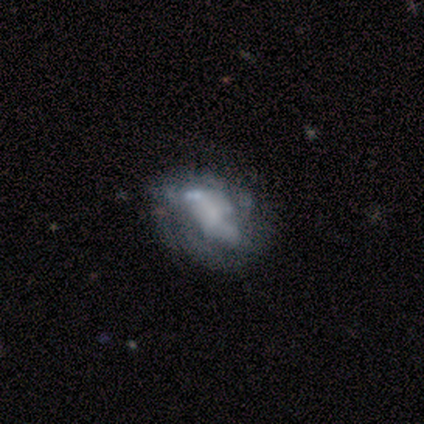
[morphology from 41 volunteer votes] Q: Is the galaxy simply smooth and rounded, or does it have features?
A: featured or disk — 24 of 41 (59%).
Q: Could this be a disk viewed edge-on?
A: no — 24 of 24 (100%).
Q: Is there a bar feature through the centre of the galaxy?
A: no — 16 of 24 (67%).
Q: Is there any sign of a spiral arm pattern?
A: no — 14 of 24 (58%).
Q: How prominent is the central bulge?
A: none — 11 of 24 (46%).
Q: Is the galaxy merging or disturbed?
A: none — 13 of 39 (33%, tied with major disturbance).